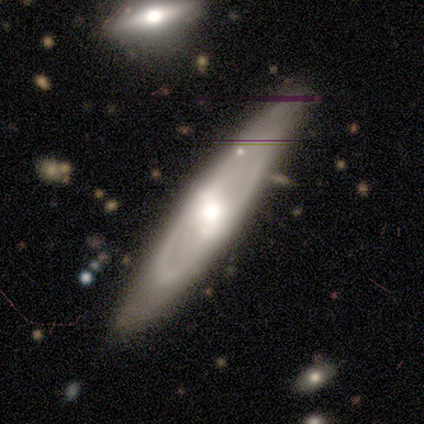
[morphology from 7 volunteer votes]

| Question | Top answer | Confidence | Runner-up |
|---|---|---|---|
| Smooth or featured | featured or disk | 86% | smooth (14%) |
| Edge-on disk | yes | 50% | tied: no (50%) |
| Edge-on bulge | rounded | 100% | — |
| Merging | none | 57% | merger (29%) |